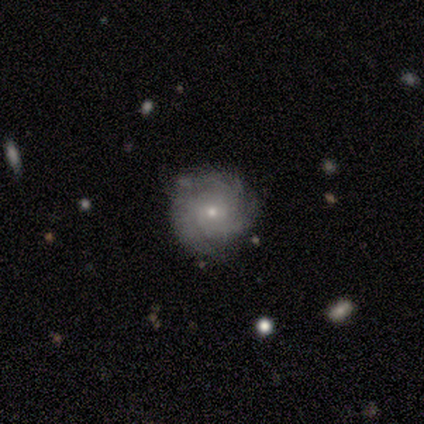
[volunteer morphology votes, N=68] Q: Smooth or featured?
A: featured or disk (78%); runner-up: smooth (19%)
Q: Edge-on disk?
A: no (96%); runner-up: yes (4%)
Q: Bar?
A: no (76%); runner-up: weak (24%)
Q: Spiral arms?
A: yes (94%); runner-up: no (6%)
Q: Spiral winding?
A: tight (73%); runner-up: medium (23%)
Q: Spiral arm count?
A: 3 (46%); runner-up: can't tell (33%)
Q: Bulge size?
A: small (78%); runner-up: moderate (20%)
Q: Merging?
A: none (77%); runner-up: minor disturbance (14%)